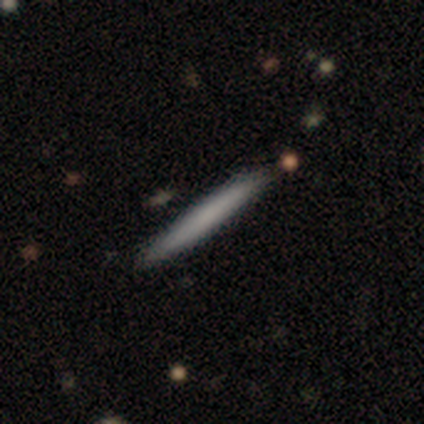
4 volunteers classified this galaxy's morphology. Smooth or featured? 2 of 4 (50%, tied with featured or disk) said smooth. How rounded? 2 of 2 (100%) said cigar-shaped. Merging? 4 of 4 (100%) said none.